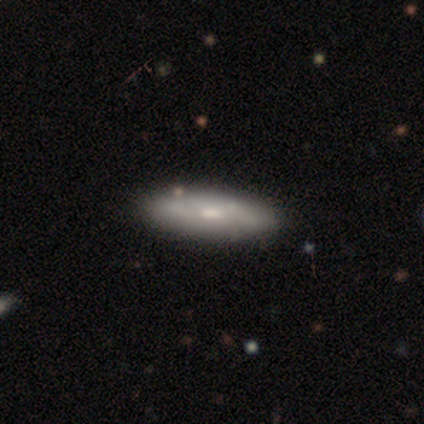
This is likely a featured or disk galaxy (67%). It is possibly viewed edge-on (50%, tied with no). Edge-on bulge: clearly none (100%). Merging: clearly none (100%).